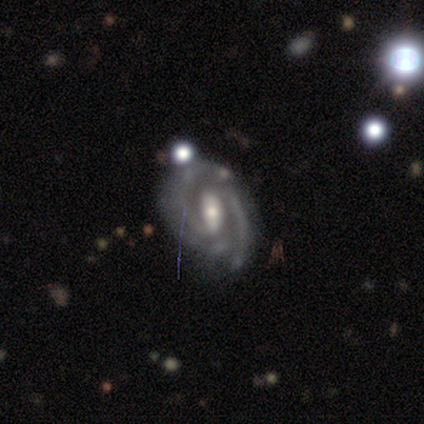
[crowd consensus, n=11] This is clearly a featured or disk galaxy (91%). It is clearly not viewed edge-on (100%). Bar: likely strong (70%). Spiral arm pattern: clearly yes (100%). Spiral arm count: possibly 2 (50%). Spiral winding: possibly tight (50%). Central bulge: possibly moderate (50%, tied with small). Merging: possibly none (55%).